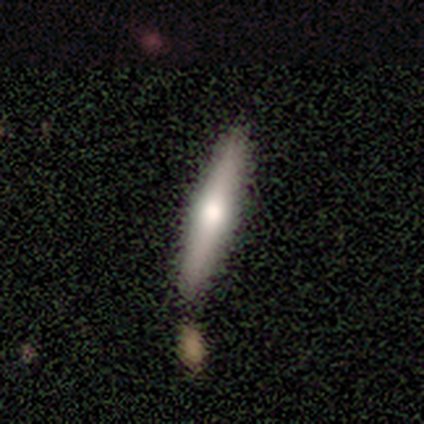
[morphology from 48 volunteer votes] A smooth galaxy with no disk features (46%, tied with featured or disk) that is cigar-shaped (82%). Merging: none (75%).